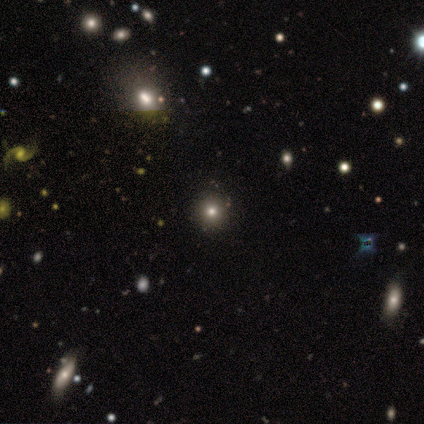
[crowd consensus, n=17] Q: Smooth or featured?
A: smooth (53%); runner-up: featured or disk (24%)
Q: How rounded?
A: round (89%); runner-up: in between (11%)
Q: Merging?
A: none (77%); runner-up: minor disturbance (15%)